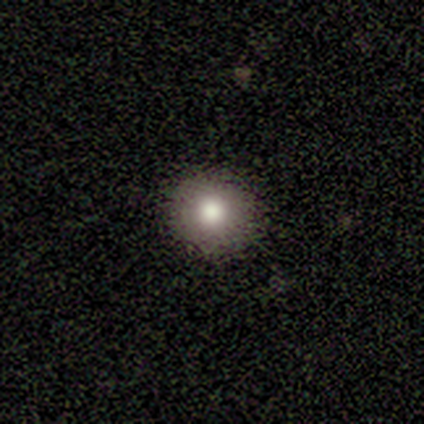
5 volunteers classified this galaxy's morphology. A smooth galaxy with no disk features (60%) that is round (67%).

Vote fractions:
- Smooth or featured? smooth: 60% / featured or disk: 20% / star or artifact: 20%
- How rounded? round: 67% / in between: 33% / cigar-shaped: 0%
- Merging? none: 75% / minor disturbance: 25% / major disturbance: 0% / merger: 0%